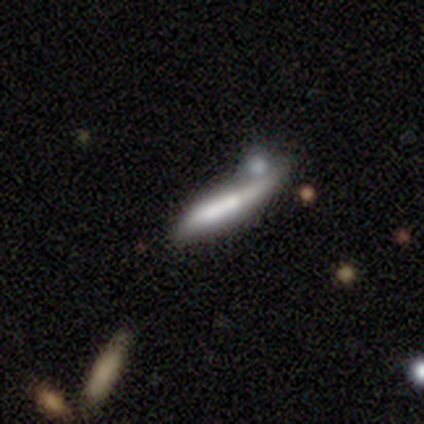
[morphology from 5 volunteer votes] Smooth or featured?
  - smooth: 60% *
  - featured or disk: 20%
  - star or artifact: 20%
How rounded?
  - cigar-shaped: 100% *
  - round: 0%
  - in between: 0%
Merging?
  - minor disturbance: 50% *
  - none: 25%
  - merger: 25%
  - major disturbance: 0%